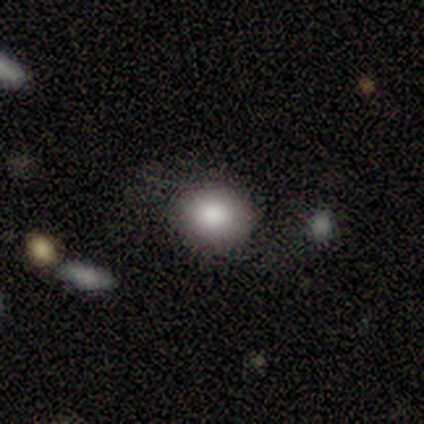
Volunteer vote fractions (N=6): This appears to be a smooth galaxy with no disk features (100%) that is round (83%). Merging: none (100%).